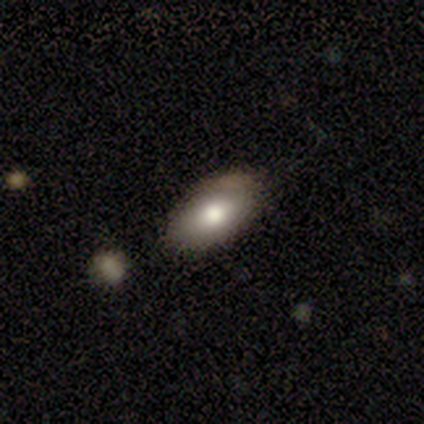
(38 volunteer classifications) A smooth galaxy with no disk features (79%) that is in between round and cigar-shaped (97%). Merging: none (73%).